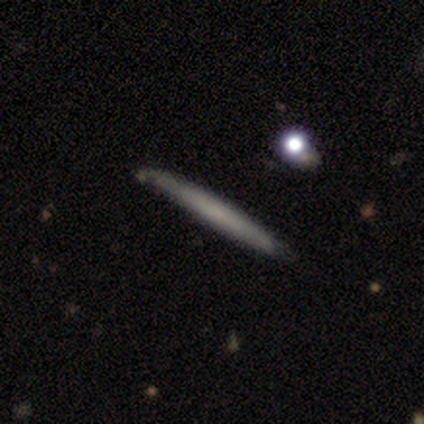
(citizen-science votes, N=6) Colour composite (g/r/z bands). It shows a featured or disk galaxy (67%) viewed edge-on (75%) with no central bulge (67%). Merging: none (80%).